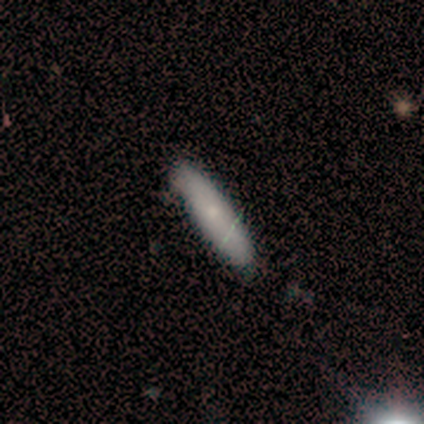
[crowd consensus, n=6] Smooth or featured? featured or disk (67%)
Edge-on disk? no (75%)
Bar? no (100%)
Spiral arms? no (100%)
Bulge size? moderate (67%)
Merging? none (67%)